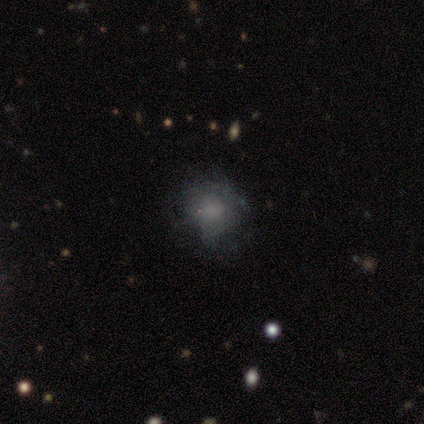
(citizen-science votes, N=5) This appears to be a smooth galaxy with no disk features (40%, tied with star or artifact) that is round (100%). Merging: none (33%, tied with minor disturbance and major disturbance).